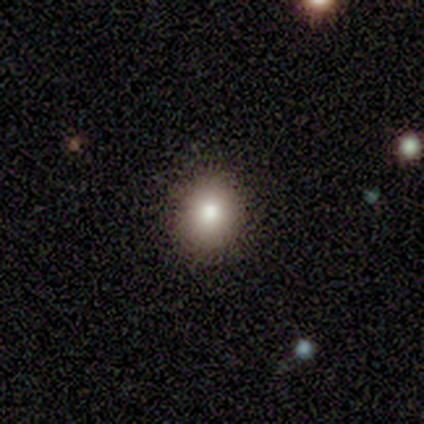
Smooth or featured: smooth — 80% (featured or disk — 20%)
How rounded: round — 75% (in between — 25%)
Merging: none — 100%